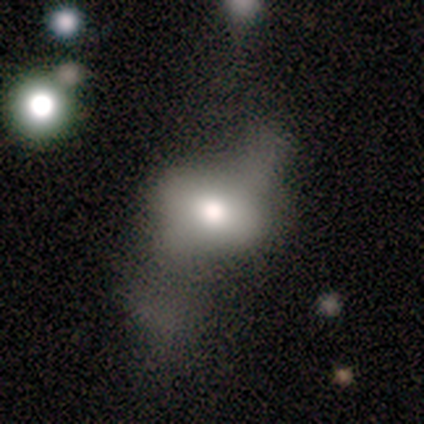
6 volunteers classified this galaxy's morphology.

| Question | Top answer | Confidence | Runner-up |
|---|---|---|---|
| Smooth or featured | featured or disk | 83% | smooth (17%) |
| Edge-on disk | no | 80% | yes (20%) |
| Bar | no | 100% | — |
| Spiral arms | no | 100% | — |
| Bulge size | moderate | 100% | — |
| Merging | minor disturbance | 50% | tied: major disturbance (50%) |